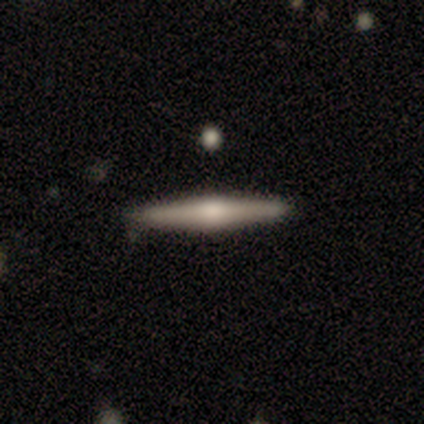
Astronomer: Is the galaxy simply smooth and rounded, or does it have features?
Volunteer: featured or disk — 75%.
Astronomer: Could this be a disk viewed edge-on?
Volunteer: yes — 100%.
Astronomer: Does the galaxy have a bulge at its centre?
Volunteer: rounded — 100%.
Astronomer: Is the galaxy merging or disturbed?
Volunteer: none — 50%, tied with minor disturbance at 50%.